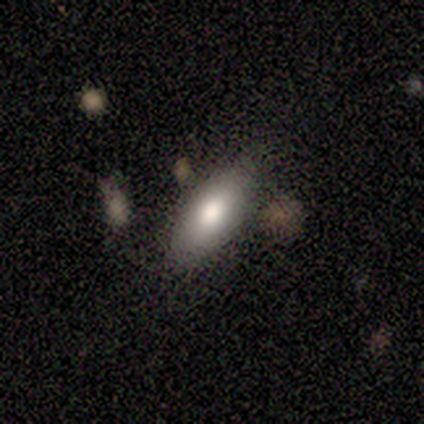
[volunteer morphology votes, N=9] This appears to be a smooth galaxy with no disk features (78%) that is in between round and cigar-shaped (86%). Merging: none (62%).